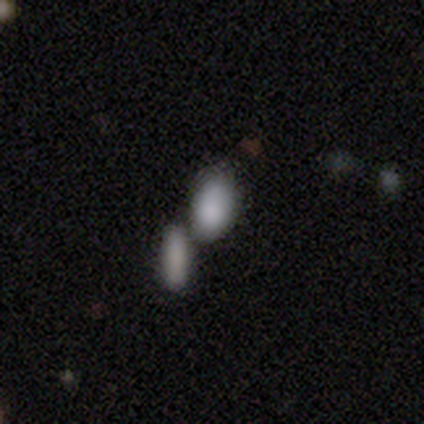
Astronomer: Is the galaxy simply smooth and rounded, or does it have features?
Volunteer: smooth — 79%.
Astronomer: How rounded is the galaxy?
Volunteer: in between — 89%.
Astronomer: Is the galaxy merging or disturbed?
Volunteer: none — 46% (runner-up: merger, 43%).